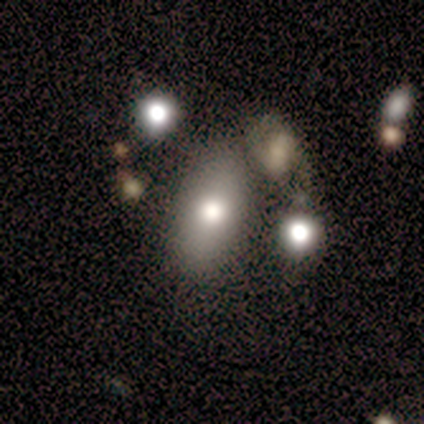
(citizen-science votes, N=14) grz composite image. It shows a smooth galaxy with no disk features (64%) that is in between round and cigar-shaped (78%). Merging: none (36%, tied with merger).